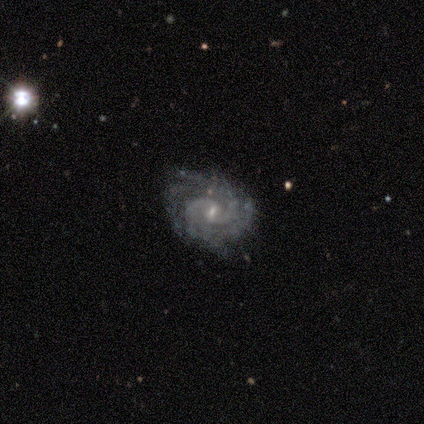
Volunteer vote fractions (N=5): A featured or disk galaxy (100%) with a weak bar (80%), 2 (40%, tied with 4) tight (60%) spiral arms (100%) and a small central bulge (100%).

Vote fractions:
- Smooth or featured? featured or disk: 100% / smooth: 0% / star or artifact: 0%
- Edge-on disk? no: 100% / yes: 0%
- Bar? weak: 80% / no: 20% / strong: 0%
- Spiral arms? yes: 100% / no: 0%
- Spiral winding? tight: 60% / medium: 40% / loose: 0%
- Spiral arm count? 2: 40% (tied) / 4: 40% (tied) / can't tell: 20% / 1: 0% / 3: 0% / more than 4: 0%
- Bulge size? small: 100% / dominant: 0% / large: 0% / moderate: 0% / none: 0%
- Merging? none: 80% / minor disturbance: 20% / major disturbance: 0% / merger: 0%